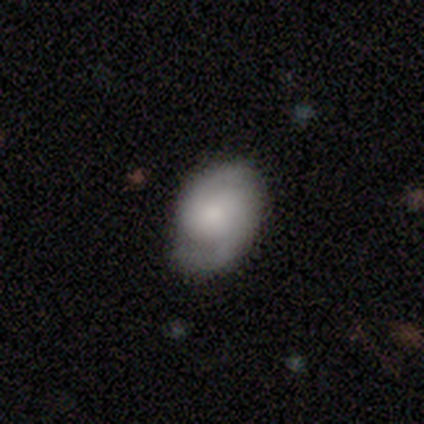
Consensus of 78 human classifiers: Morphology: type=featured or disk (60%); edge-on=no (98%); bar=no (80%); spiral arms=yes (96%); winding=tight (48%); arm count=2 (91%); bulge=moderate (43%); merging=none (34%).